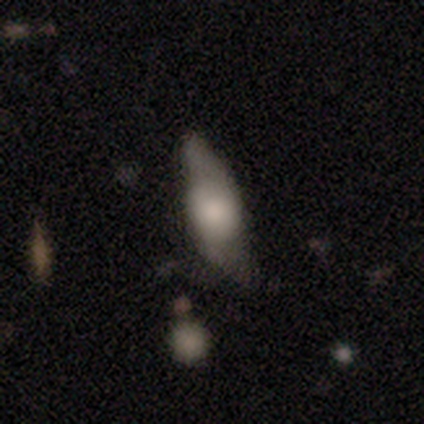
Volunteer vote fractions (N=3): A featured or disk galaxy (100%) viewed edge-on (100%) with a rounded central bulge (67%). Merging: minor disturbance (67%).